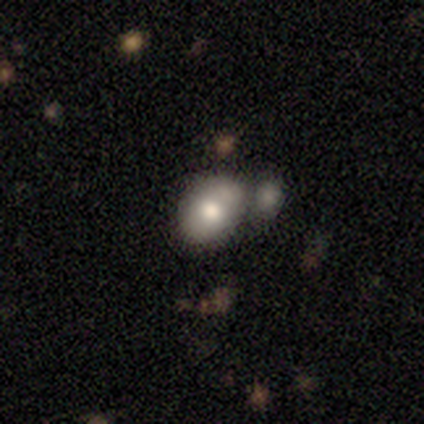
smooth 79%, featured or disk 13%, star or artifact 8%. Down the decision tree: how rounded — in between (70%); merging — merger (66%).